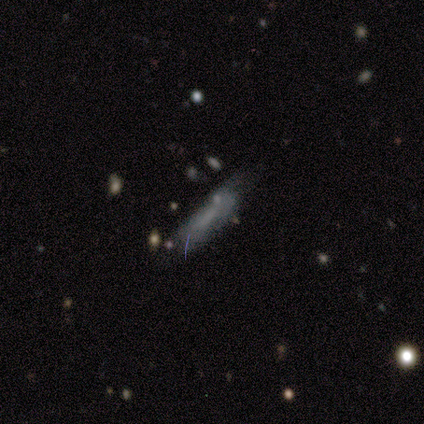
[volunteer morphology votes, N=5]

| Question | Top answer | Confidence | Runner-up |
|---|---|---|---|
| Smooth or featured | smooth | 60% | featured or disk (20%) |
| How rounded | cigar-shaped | 100% | — |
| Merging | major disturbance | 50% | none (25%) |